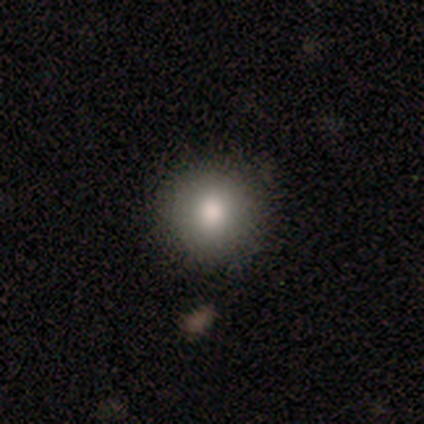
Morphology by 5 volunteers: smooth 60%, star or artifact 40%, featured or disk 0%. Down the decision tree: how rounded — round (100%); merging — none (100%).